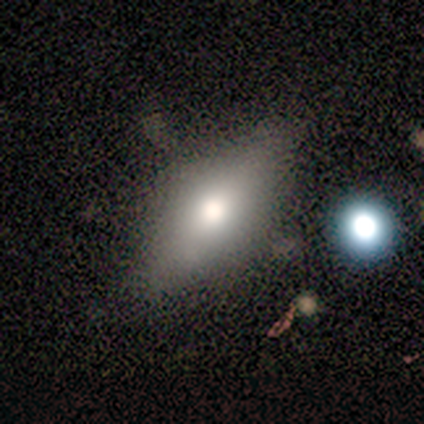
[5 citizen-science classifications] Smooth or featured: smooth — 60% (featured or disk — 40%)
How rounded: in between — 100%
Merging: none — 100%